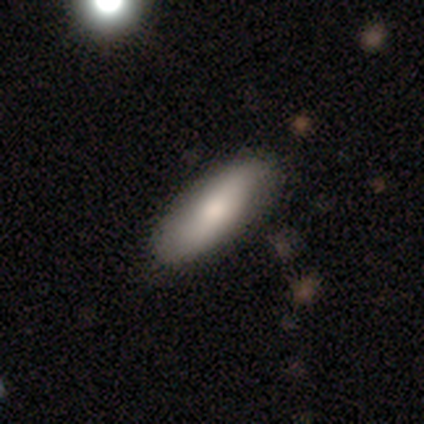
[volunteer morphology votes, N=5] This is likely a smooth galaxy (60%). How rounded: likely in between (67%). Merging: clearly none (100%).